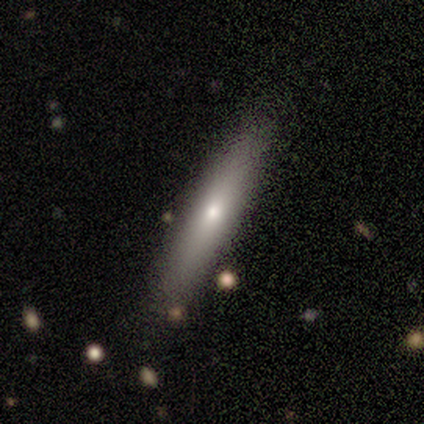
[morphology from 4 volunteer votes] Q: Smooth or featured?
A: smooth (75%); runner-up: featured or disk (25%)
Q: How rounded?
A: cigar-shaped (100%)
Q: Merging?
A: none (100%)